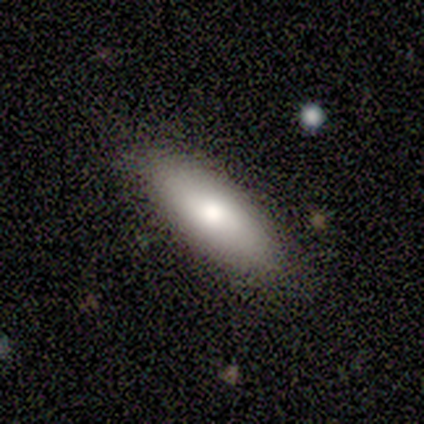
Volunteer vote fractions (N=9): Morphology: type=smooth (89%); roundness=in between (75%); merging=none (100%).